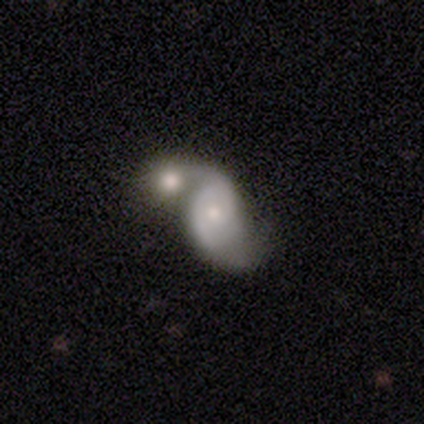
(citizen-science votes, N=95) This is likely a featured or disk galaxy (71%). It is clearly not viewed edge-on (99%). Bar: likely no (73%). Spiral arm pattern: clearly yes (82%). Spiral arm count: clearly 2 (83%). Spiral winding: marginally medium (44%). Central bulge: possibly small (50%). Merging: likely merger (71%).